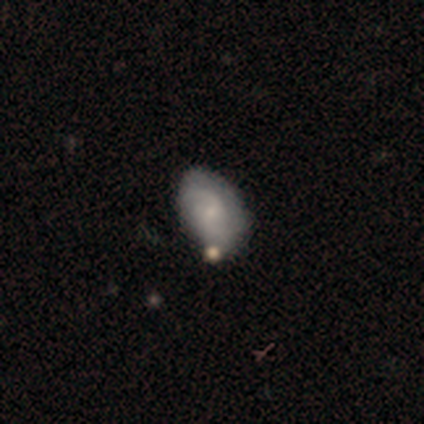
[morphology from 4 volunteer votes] featured or disk 75%, smooth 25%, star or artifact 0%. Down the decision tree: edge-on disk — no (67%); bar — weak (50%, tied with no); spiral arms — yes (100%); spiral arm count — 2 (100%); spiral winding — medium (50%, tied with loose); bulge size — small (100%); merging — none (100%).